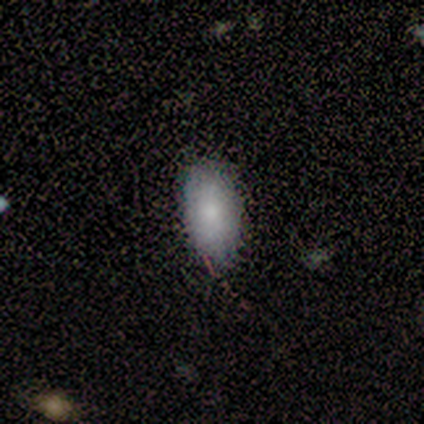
Morphology: type=smooth (100%); roundness=in between (100%); merging=none (80%).